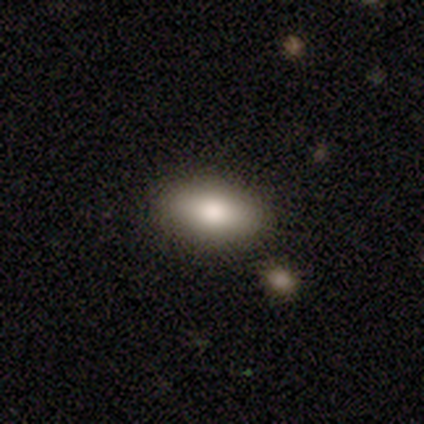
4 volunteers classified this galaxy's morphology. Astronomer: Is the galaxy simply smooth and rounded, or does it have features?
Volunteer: smooth — 100%.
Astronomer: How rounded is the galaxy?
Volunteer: in between — 100%.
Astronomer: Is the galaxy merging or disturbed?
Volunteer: none — 100%.